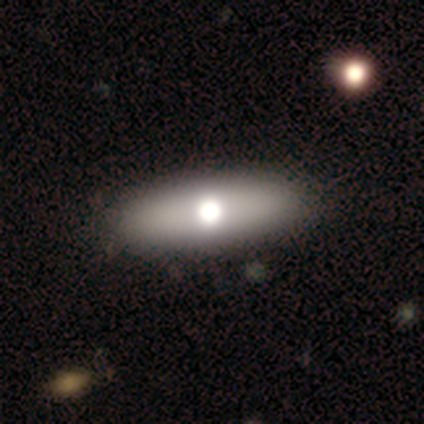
A smooth galaxy with no disk features (80%) that is in between round and cigar-shaped (75%). Merging: none (50%, tied with minor disturbance).